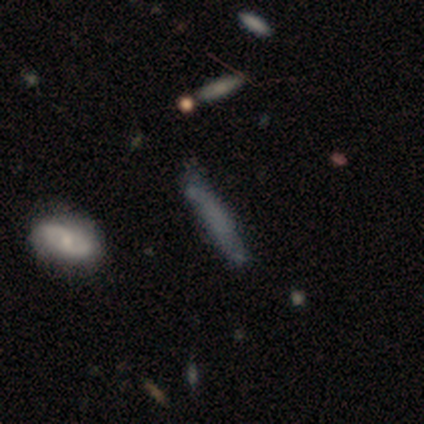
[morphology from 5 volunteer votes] Smooth or featured? 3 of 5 (60%) said smooth. How rounded? 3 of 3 (100%) said cigar-shaped. Merging? 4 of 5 (80%) said none.